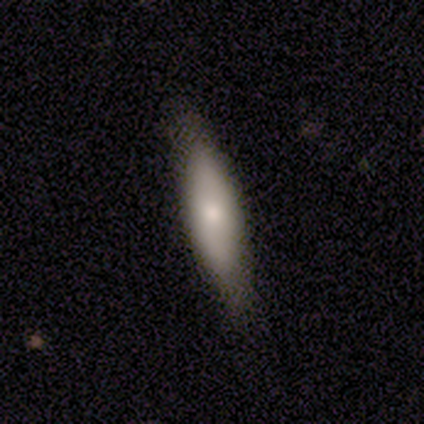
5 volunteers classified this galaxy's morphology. A smooth galaxy with no disk features (80%) that is in between round and cigar-shaped (50%, tied with cigar-shaped).

Vote fractions:
- Smooth or featured? smooth: 80% / star or artifact: 20% / featured or disk: 0%
- How rounded? in between: 50% (tied) / cigar-shaped: 50% (tied) / round: 0%
- Merging? none: 100% / minor disturbance: 0% / major disturbance: 0% / merger: 0%